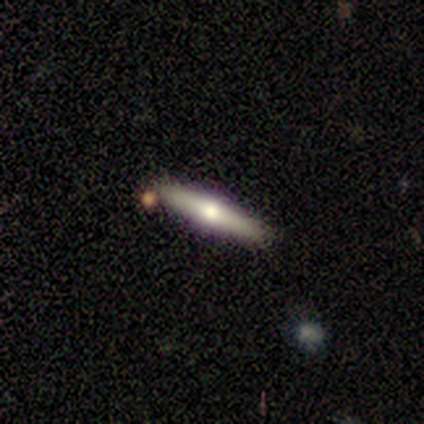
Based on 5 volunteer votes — smooth-or-featured: featured or disk: 60% | smooth: 40% | star or artifact: 0%
  disk-edge-on: yes: 100% | no: 0%
    edge-on-bulge: rounded: 100% | boxy: 0% | none: 0%
  merging: none: 100% | minor disturbance: 0% | major disturbance: 0% | merger: 0%